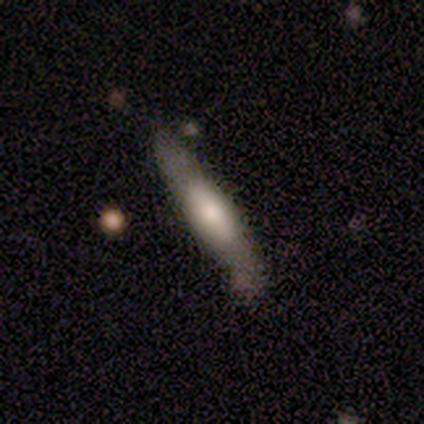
featured or disk 80%, smooth 20%, star or artifact 0%. Down the decision tree: edge-on disk — yes (75%); edge-on bulge — rounded (67%); merging — none (40%, tied with minor disturbance).